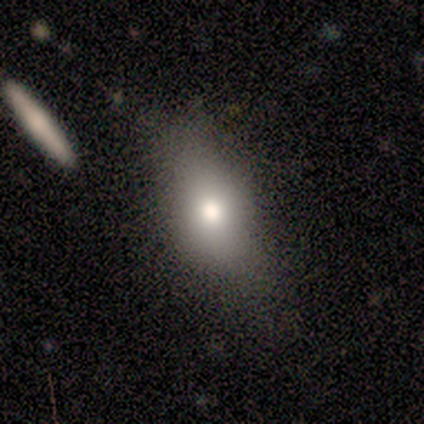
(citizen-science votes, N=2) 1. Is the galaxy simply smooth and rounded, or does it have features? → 50% smooth (tied), 50% star or artifact (tied), 0% featured or disk.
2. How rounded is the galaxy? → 100% cigar-shaped, 0% round, 0% in between.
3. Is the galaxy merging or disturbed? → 100% major disturbance, 0% none, 0% minor disturbance, 0% merger.